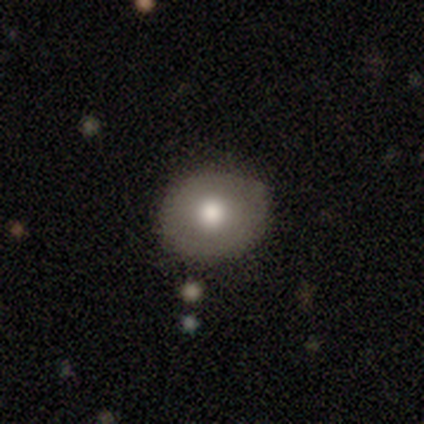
A smooth galaxy with no disk features (82%) that is round (82%).

Vote fractions:
- Smooth or featured? smooth: 82% / featured or disk: 15% / star or artifact: 2%
- How rounded? round: 82% / in between: 18% / cigar-shaped: 0%
- Merging? none: 85% / minor disturbance: 15% / major disturbance: 0% / merger: 0%